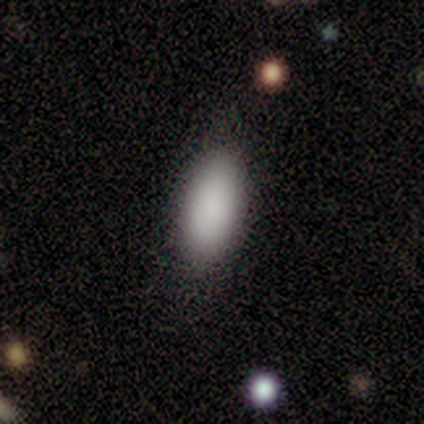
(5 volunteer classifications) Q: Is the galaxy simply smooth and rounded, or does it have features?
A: smooth — 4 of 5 (80%).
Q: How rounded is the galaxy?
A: in between — 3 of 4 (75%).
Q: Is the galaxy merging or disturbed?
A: none — 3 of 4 (75%).